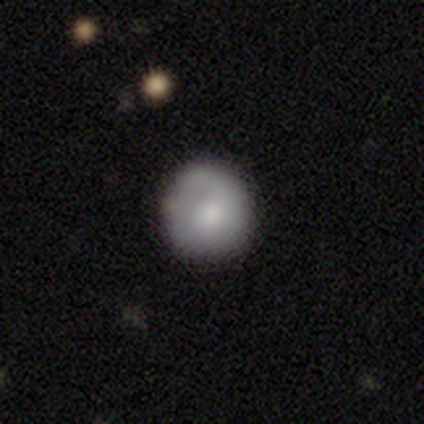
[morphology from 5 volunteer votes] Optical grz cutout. It shows a smooth galaxy with no disk features (100%) that is round (80%). Merging: none (100%).